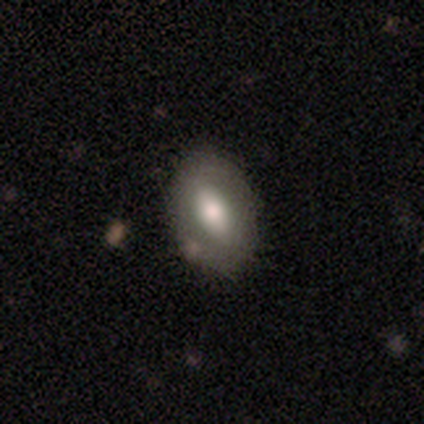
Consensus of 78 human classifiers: Overall: smooth (58%; featured or disk 40%). How rounded: in between (91%). Merging: none (51%).